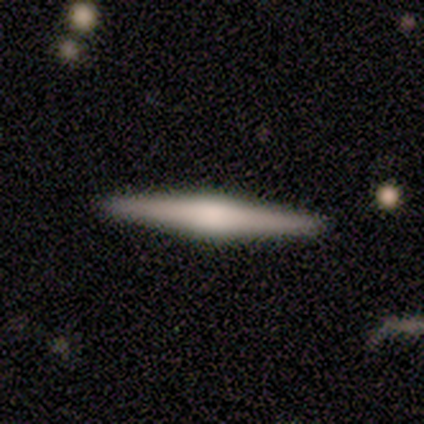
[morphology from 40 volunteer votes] A featured or disk galaxy (72%) viewed edge-on (97%) with a rounded central bulge (89%).

Vote fractions:
- Smooth or featured? featured or disk: 72% / smooth: 25% / star or artifact: 2%
- Edge-on disk? yes: 97% / no: 3%
- Edge-on bulge? rounded: 89% / boxy: 7% / none: 4%
- Merging? none: 95% / minor disturbance: 3% / major disturbance: 3% / merger: 0%